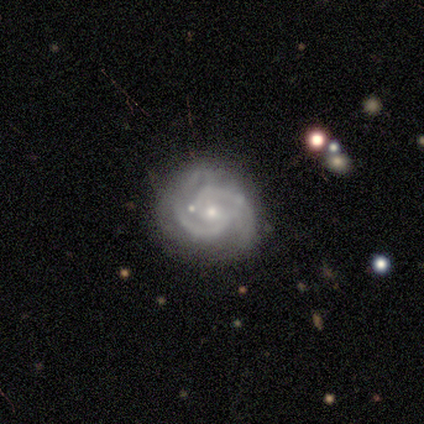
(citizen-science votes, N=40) featured or disk 100%, smooth 0%, star or artifact 0%. Down the decision tree: edge-on disk — no (100%); bar — no (55%); spiral arms — yes (95%); spiral arm count — 2 (84%); spiral winding — tight (66%); bulge size — small (65%); merging — none (55%).